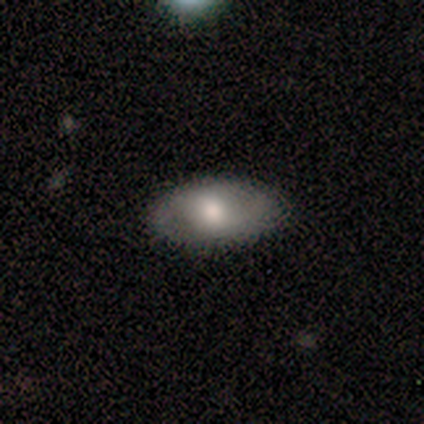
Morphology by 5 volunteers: This is likely a smooth galaxy (60%). How rounded: clearly in between (100%). Merging: clearly none (100%).